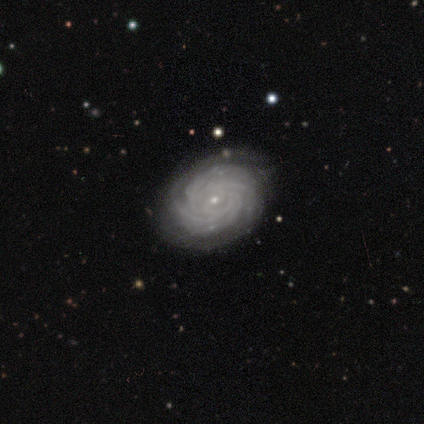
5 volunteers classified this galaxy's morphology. Volunteers were most divided on "bar" (2-way tie): weak: 50%, no: 50%, strong: 0%; "spiral arm count" (4-way tie): 2: 25%, 3: 25%, 4: 25%, more than 4: 25%, 1: 0%, can't tell: 0%. More confident: edge-on disk — no (100%); spiral arms — yes (100%); spiral winding — tight (100%); bulge size — small (100%); smooth or featured — featured or disk (80%); merging — none (80%).